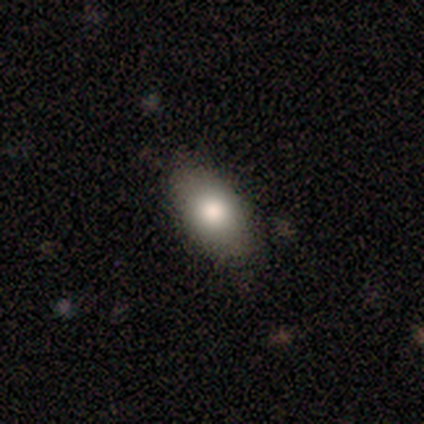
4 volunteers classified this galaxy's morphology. Smooth or featured?
  - smooth: 75% *
  - star or artifact: 25%
  - featured or disk: 0%
How rounded?
  - in between: 100% *
  - round: 0%
  - cigar-shaped: 0%
Merging?
  - none: 100% *
  - minor disturbance: 0%
  - major disturbance: 0%
  - merger: 0%